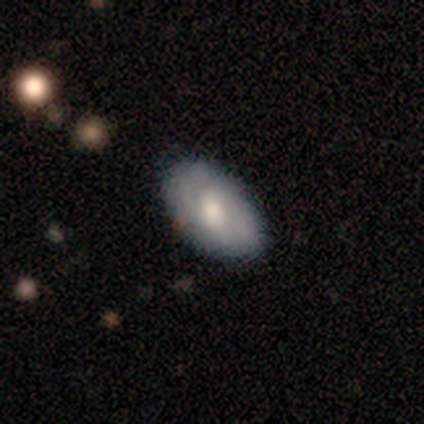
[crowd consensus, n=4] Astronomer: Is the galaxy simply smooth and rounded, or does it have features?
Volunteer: smooth — 75%.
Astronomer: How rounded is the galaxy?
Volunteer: in between — 100%.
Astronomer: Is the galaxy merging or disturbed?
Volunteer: none — 50%, tied with minor disturbance at 50%.